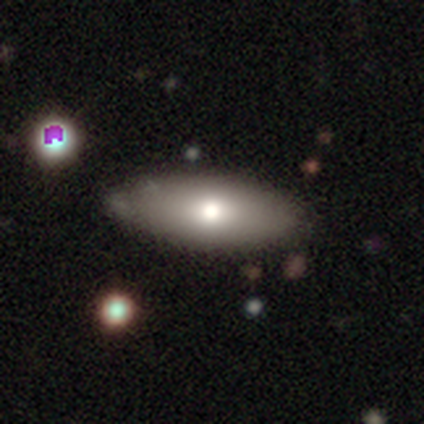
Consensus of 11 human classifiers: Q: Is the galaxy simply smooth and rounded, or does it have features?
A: smooth — 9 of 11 (82%).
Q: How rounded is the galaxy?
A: in between — 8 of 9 (89%).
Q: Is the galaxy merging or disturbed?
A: none — 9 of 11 (82%).